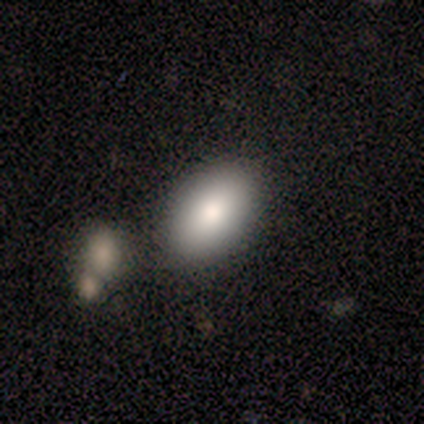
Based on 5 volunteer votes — This appears to be a smooth galaxy with no disk features (100%) that is in between round and cigar-shaped (100%). Merging: none (60%).